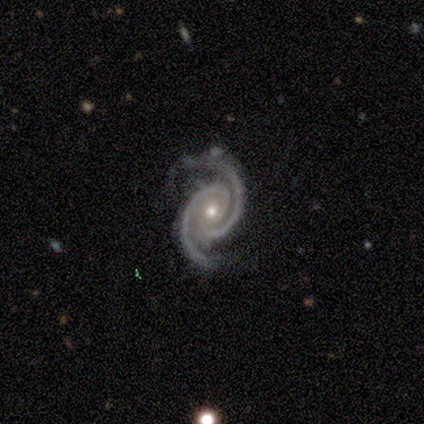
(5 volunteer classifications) Morphology: type=featured or disk (100%); edge-on=no (100%); bar=no (100%); spiral arms=yes (100%); winding=tight (60%); arm count=2 (100%); bulge=moderate (80%); merging=minor disturbance (60%).